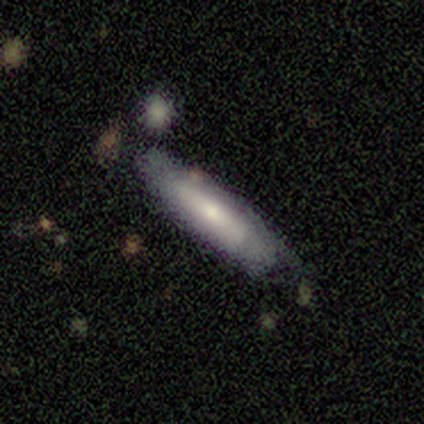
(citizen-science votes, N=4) smooth_or_featured: smooth (p=0.50) [tied with: featured or disk p=0.50]
how_rounded: in between (p=0.50) [tied with: cigar-shaped p=0.50]
merging: none (p=0.50) [tied with: minor disturbance p=0.50]